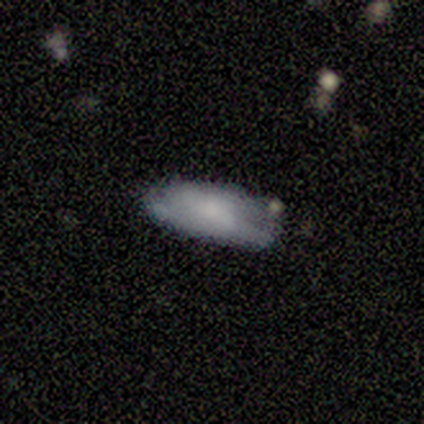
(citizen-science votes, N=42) Smooth or featured? 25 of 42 (60%) said smooth. How rounded? 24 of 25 (96%) said in between. Merging? 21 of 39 (54%) said none.